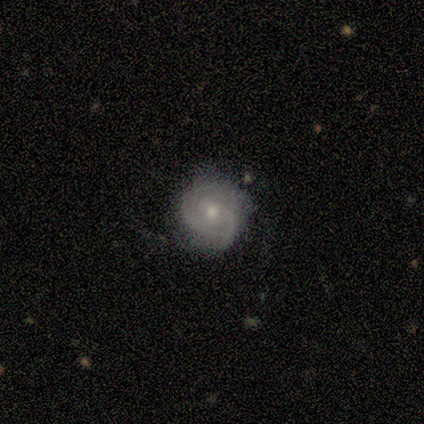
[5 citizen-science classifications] This appears to be a featured or disk galaxy (80%) with no bar (75%), 3 (50%) tight (75%) spiral arms (100%) and a moderate central bulge (75%). Merging: none (80%).